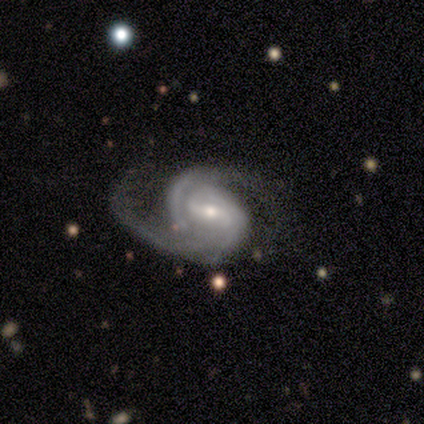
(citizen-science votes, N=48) Overall: featured or disk (96%). Edge-on disk: no (100%). Bar: weak (54%; strong 24%). Spiral arms: yes (96%). Spiral arm count: 2 (86%). Spiral winding: medium (64%). Bulge size: moderate (54%; small 37%). Merging: none (51%; major disturbance 30%).